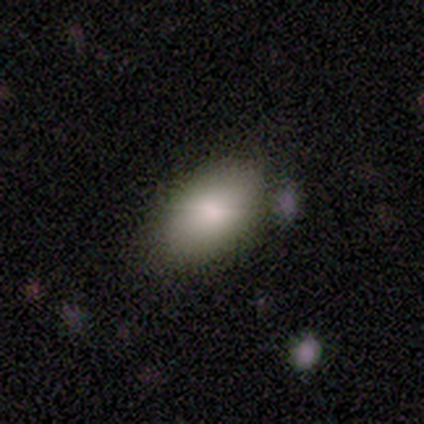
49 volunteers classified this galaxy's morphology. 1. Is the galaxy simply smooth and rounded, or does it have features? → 80% smooth, 12% featured or disk, 8% star or artifact.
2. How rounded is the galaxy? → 92% in between, 8% round, 0% cigar-shaped.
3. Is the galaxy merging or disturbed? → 69% none, 27% minor disturbance, 4% merger, 0% major disturbance.